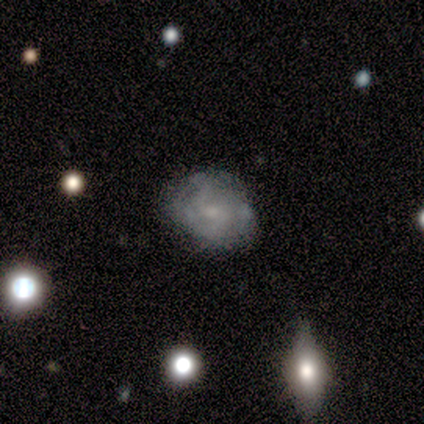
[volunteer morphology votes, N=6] smooth-or-featured: smooth: 67% | featured or disk: 33% | star or artifact: 0%
  how-rounded: round: 75% | in between: 25% | cigar-shaped: 0%
  merging: none: 83% | minor disturbance: 17% | major disturbance: 0% | merger: 0%